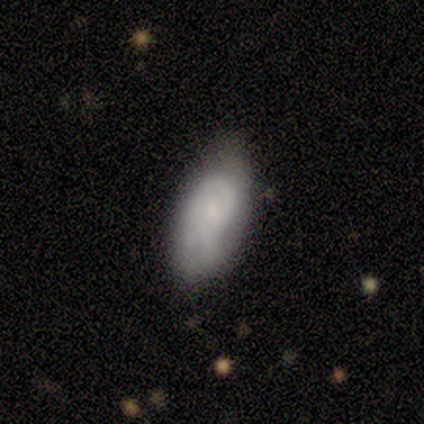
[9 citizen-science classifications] smooth 44%, featured or disk 33%, star or artifact 22%. Down the decision tree: how rounded — in between (100%); merging — none (71%).